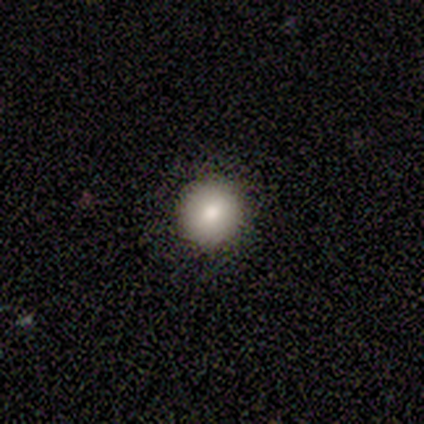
A smooth galaxy with no disk features (75%) that is round (100%).

Vote fractions:
- Smooth or featured? smooth: 75% / star or artifact: 25% / featured or disk: 0%
- How rounded? round: 100% / in between: 0% / cigar-shaped: 0%
- Merging? none: 100% / minor disturbance: 0% / major disturbance: 0% / merger: 0%